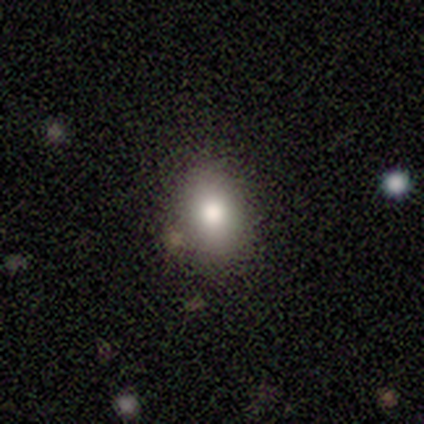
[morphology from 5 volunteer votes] Overall: smooth (100%). How rounded: in between (80%). Merging: none (100%).